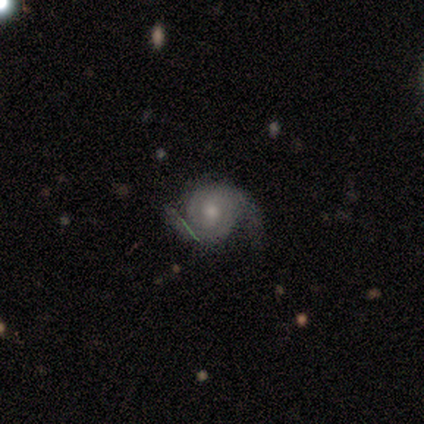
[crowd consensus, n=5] Smooth or featured? 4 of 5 (80%) said featured or disk. Edge-on disk? 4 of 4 (100%) said no. Bar? 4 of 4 (100%) said no. Spiral arms? 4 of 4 (100%) said yes. Spiral winding? 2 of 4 (50%) said loose. Spiral arm count? 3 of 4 (75%) said 2. Bulge size? 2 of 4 (50%) said moderate. Merging? 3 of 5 (60%) said none.